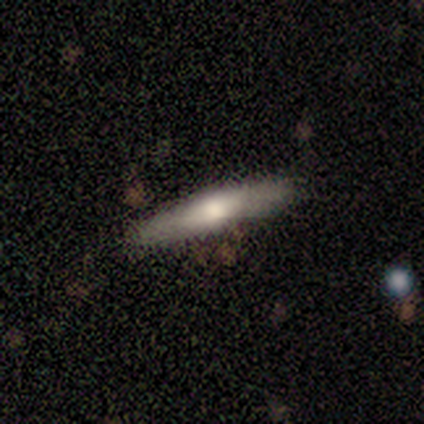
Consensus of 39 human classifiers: This appears to be a smooth galaxy with no disk features (56%) that is cigar-shaped (95%). Merging: none (85%).